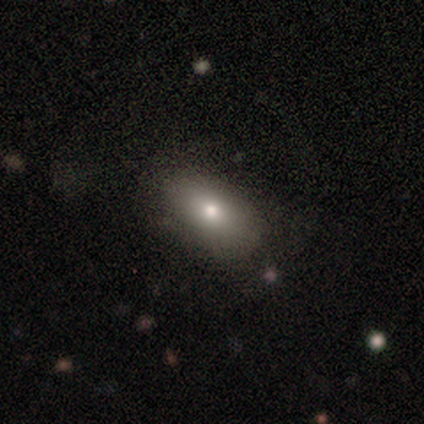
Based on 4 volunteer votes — Consensus on every question: smooth or featured — smooth (100%); how rounded — in between (100%); merging — none (100%).